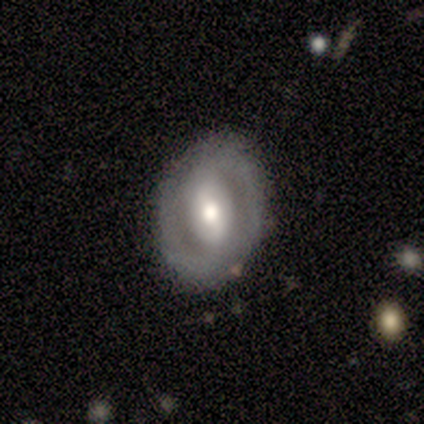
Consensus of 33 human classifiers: This appears to be a featured or disk galaxy (67%) with a strong bar (38%, tied with weak), 2 (64%) tight (57%) spiral arms (67%) and a moderate central bulge (71%). Merging: none (83%).